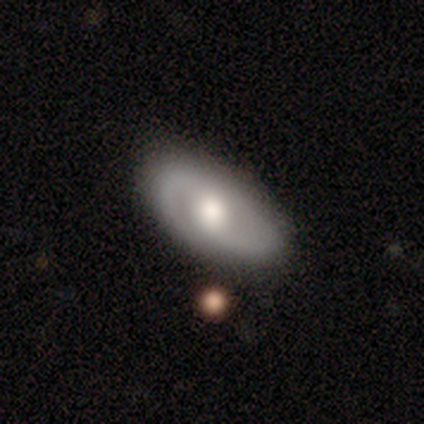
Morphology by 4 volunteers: Smooth or featured: featured or disk — 100%
Edge-on disk: no — 75% (yes — 25%)
Bar: weak — 67% (no — 33%)
Spiral arms: yes — 67% (no — 33%)
Spiral winding: medium — 100%
Spiral arm count: 2 — 100%
Bulge size: large — 33% (tied with moderate — 33%; small — 33%)
Merging: none — 100%